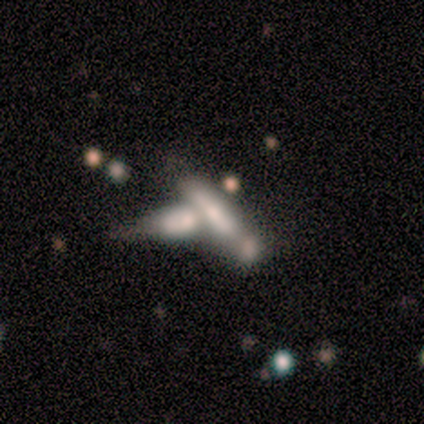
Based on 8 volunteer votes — Overall: featured or disk (50%; smooth 38%). Edge-on disk: yes (50%, tied with no). Edge-on bulge: none (100%). Merging: merger (86%).